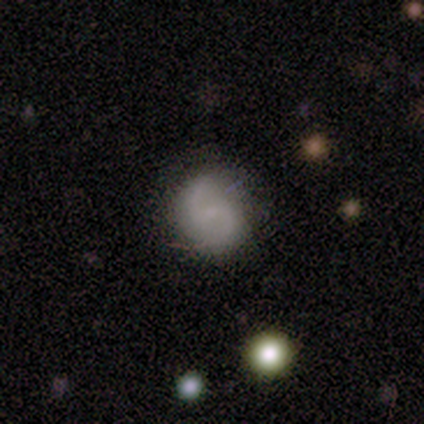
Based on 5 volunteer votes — A featured or disk galaxy (60%) with a weak bar (67%), 2 (100%) loose (100%) spiral arms (67%) and no central bulge (100%). Merging: none (60%).